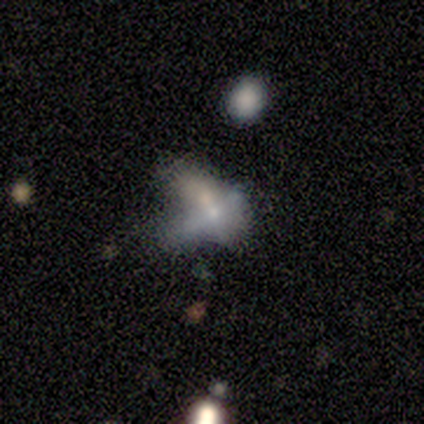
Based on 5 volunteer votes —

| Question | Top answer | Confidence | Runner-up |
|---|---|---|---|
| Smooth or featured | featured or disk | 80% | star or artifact (20%) |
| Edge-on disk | no | 75% | yes (25%) |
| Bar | no | 100% | — |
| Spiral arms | no | 100% | — |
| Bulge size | small | 67% | moderate (33%) |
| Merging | merger | 75% | major disturbance (25%) |